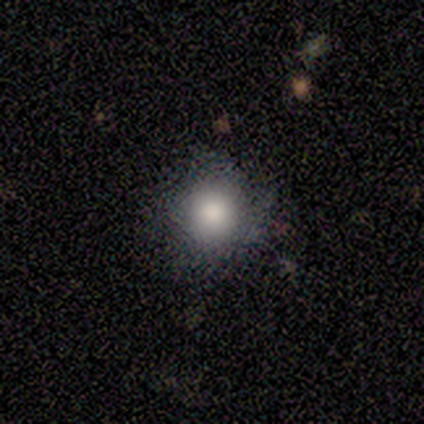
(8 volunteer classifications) Morphology: type=smooth (75%); roundness=round (67%); merging=none (62%).